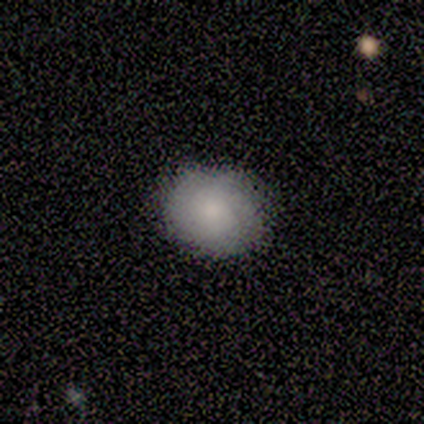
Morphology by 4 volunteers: Q: Smooth or featured?
A: smooth (75%); runner-up: featured or disk (25%)
Q: How rounded?
A: round (67%); runner-up: in between (33%)
Q: Merging?
A: none (100%)